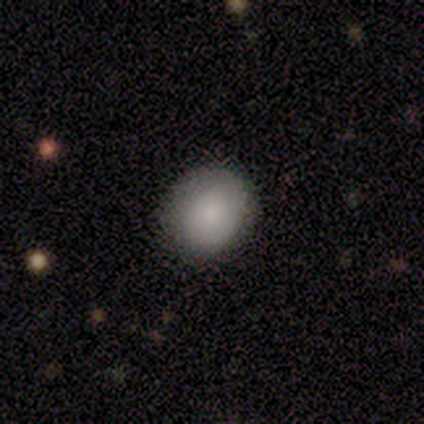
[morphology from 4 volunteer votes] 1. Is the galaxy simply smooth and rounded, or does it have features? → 75% smooth, 25% featured or disk, 0% star or artifact.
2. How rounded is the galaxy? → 100% round, 0% in between, 0% cigar-shaped.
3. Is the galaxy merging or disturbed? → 75% none, 25% minor disturbance, 0% major disturbance, 0% merger.